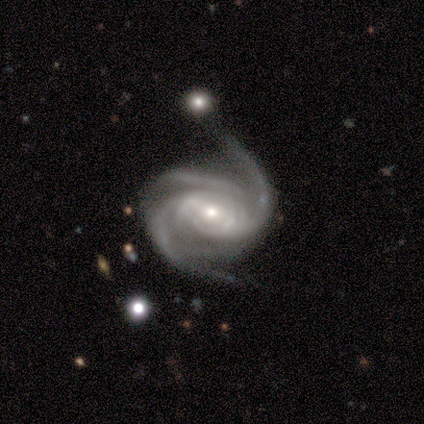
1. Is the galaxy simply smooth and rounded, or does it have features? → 100% featured or disk, 0% smooth, 0% star or artifact.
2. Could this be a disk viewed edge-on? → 100% no, 0% yes.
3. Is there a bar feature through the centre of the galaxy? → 40% strong (tied), 40% no (tied), 20% weak.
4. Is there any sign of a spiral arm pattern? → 100% yes, 0% no.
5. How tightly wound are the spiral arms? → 60% tight, 20% medium, 20% loose.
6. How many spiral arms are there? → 40% 2 (tied), 40% 3 (tied), 20% can't tell, 0% 1, 0% 4, 0% more than 4.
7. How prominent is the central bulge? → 80% small, 20% moderate, 0% dominant, 0% large, 0% none.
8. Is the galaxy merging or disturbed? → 80% none, 20% major disturbance, 0% minor disturbance, 0% merger.